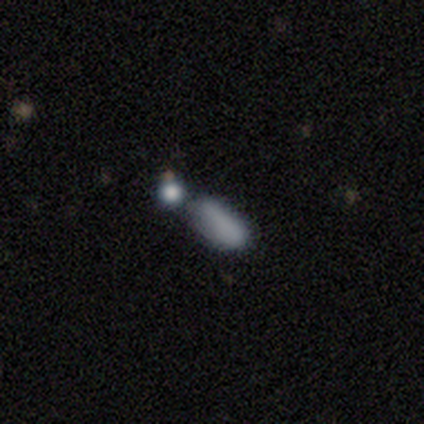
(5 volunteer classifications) Smooth or featured? smooth (80%)
How rounded? in between (100%)
Merging? merger (80%)